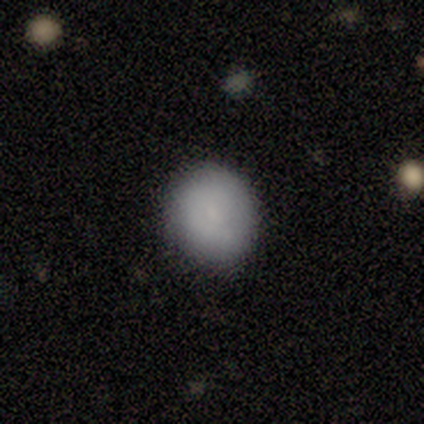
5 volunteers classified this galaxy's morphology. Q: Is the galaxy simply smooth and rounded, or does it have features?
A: smooth — 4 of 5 (80%).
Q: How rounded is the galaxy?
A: round — 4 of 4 (100%).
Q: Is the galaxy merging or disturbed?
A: none — 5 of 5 (100%).